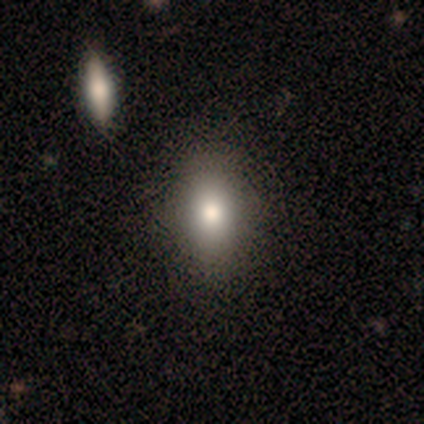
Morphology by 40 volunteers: smooth-or-featured: smooth: 80% | featured or disk: 12% | star or artifact: 8%
  how-rounded: in between: 81% | round: 12% | cigar-shaped: 6%
  merging: none: 62% | minor disturbance: 11% | merger: 5% | major disturbance: 3%